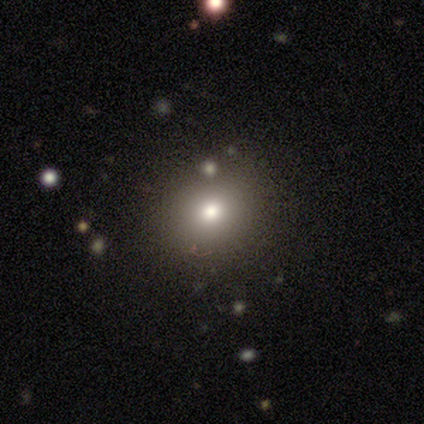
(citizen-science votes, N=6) Smooth or featured: smooth — 50% (featured or disk — 33%)
How rounded: round — 67% (in between — 33%)
Merging: none — 80% (minor disturbance — 20%)